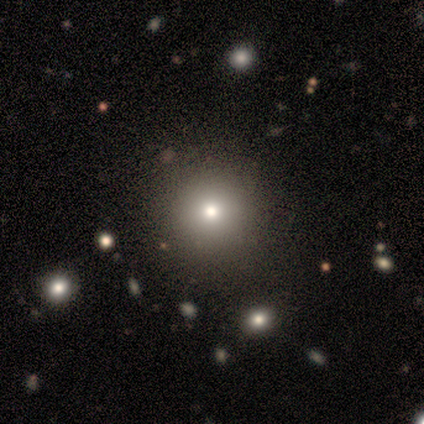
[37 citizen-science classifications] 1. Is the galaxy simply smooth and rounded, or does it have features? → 73% smooth, 16% star or artifact, 11% featured or disk.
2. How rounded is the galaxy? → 96% round, 4% in between, 0% cigar-shaped.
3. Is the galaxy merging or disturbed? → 58% none, 3% minor disturbance, 3% merger, 0% major disturbance.